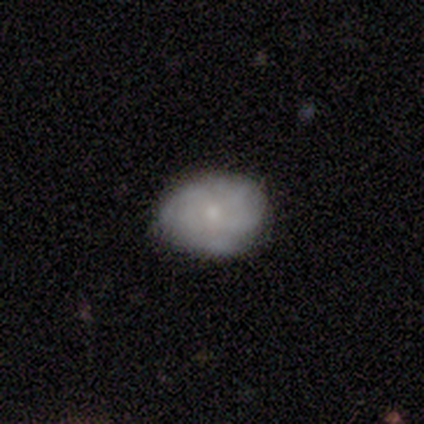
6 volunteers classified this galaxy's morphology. type=smooth (50%, tied with featured or disk); roundness=in between (100%); merging=none (67%).